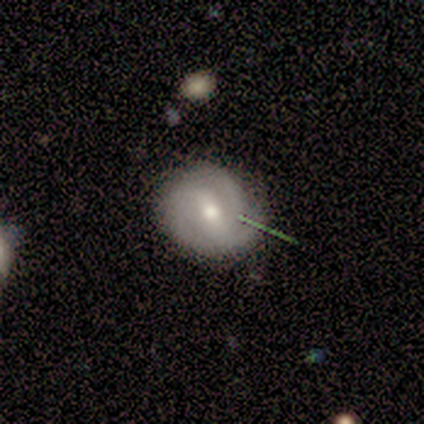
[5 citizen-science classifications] smooth_or_featured: featured or disk (p=1.00)
disk_edge_on: no (p=1.00)
bar: strong (p=0.60) [alt: weak p=0.40]
has_spiral_arms: yes (p=1.00)
spiral_winding: tight (p=0.40) [tied with: medium p=0.40]
spiral_arm_count: 2 (p=0.40) [tied with: 3 p=0.40]
bulge_size: moderate (p=0.60) [alt: large p=0.20]
merging: none (p=0.80) [alt: minor disturbance p=0.20]